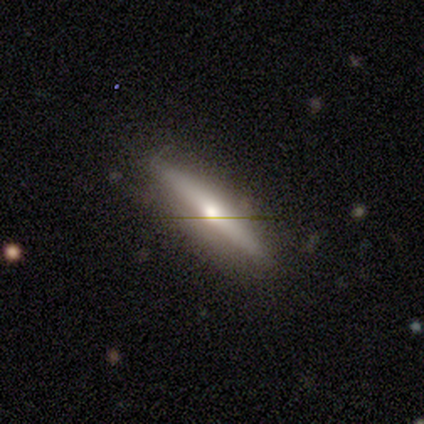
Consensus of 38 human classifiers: Smooth or featured? 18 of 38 (47%, tied with featured or disk) said smooth. How rounded? 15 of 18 (83%) said cigar-shaped. Merging? 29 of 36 (81%) said none.